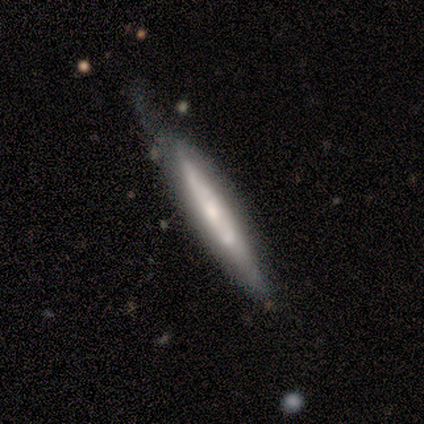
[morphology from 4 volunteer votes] smooth_or_featured: featured or disk (p=0.75) [alt: smooth p=0.25]
disk_edge_on: yes (p=1.00)
edge_on_bulge: rounded (p=0.67) [alt: none p=0.33]
merging: minor disturbance (p=0.75) [alt: none p=0.25]